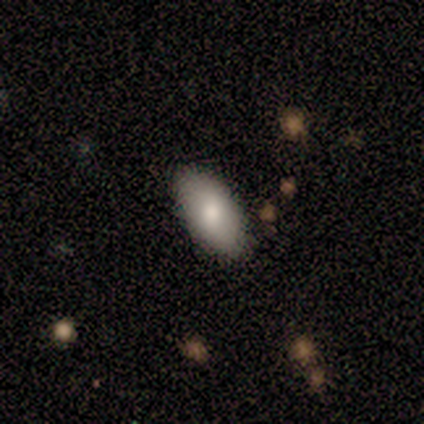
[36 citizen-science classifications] Overall: smooth (81%). How rounded: in between (83%). Merging: none (81%).